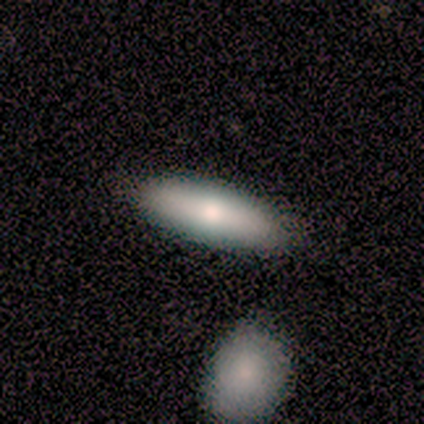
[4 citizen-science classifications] Morphology: type=smooth (75%); roundness=in between (67%); merging=none (50%).